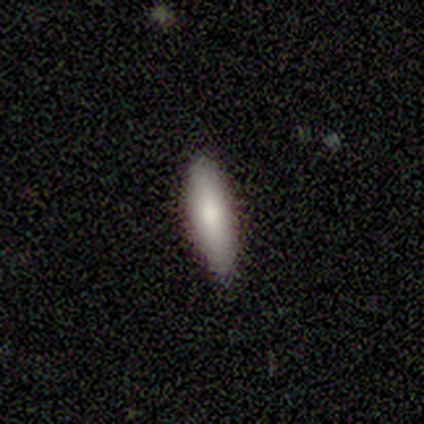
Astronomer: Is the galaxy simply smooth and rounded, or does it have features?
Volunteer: smooth — 80%.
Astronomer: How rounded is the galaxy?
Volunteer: cigar-shaped — 75%.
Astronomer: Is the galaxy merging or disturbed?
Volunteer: none — 100%.